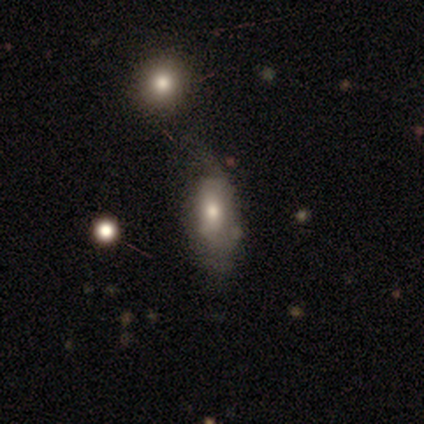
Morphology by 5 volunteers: This is likely a featured or disk galaxy (60%). It is clearly not viewed edge-on (100%). Bar: clearly no (100%). Spiral arm pattern: clearly yes (100%). Spiral arm count: likely can't tell (67%). Spiral winding: likely loose (67%). Central bulge: likely moderate (67%). Merging: likely none (60%).